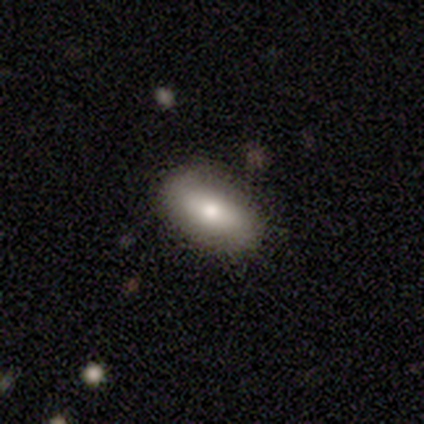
Q: Smooth or featured?
A: smooth (64%); runner-up: featured or disk (36%)
Q: How rounded?
A: in between (100%)
Q: Merging?
A: none (100%)